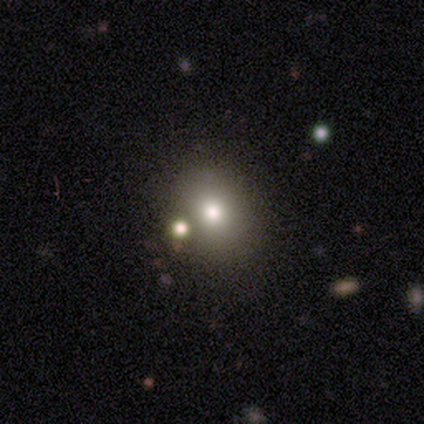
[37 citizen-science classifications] smooth_or_featured: smooth (p=0.51) [alt: star or artifact p=0.27]
how_rounded: in between (p=0.53) [alt: round p=0.47]
merging: none (p=0.59) [alt: merger p=0.26]